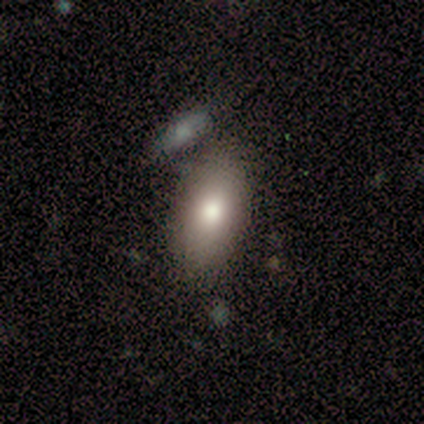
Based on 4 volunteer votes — Smooth or featured: smooth — 50% (featured or disk — 25%)
How rounded: in between — 100%
Merging: none — 67% (merger — 33%)